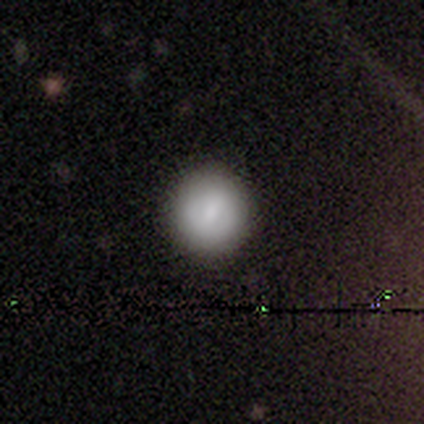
This appears to be a smooth galaxy with no disk features (100%) that is round (100%). Merging: none (100%).